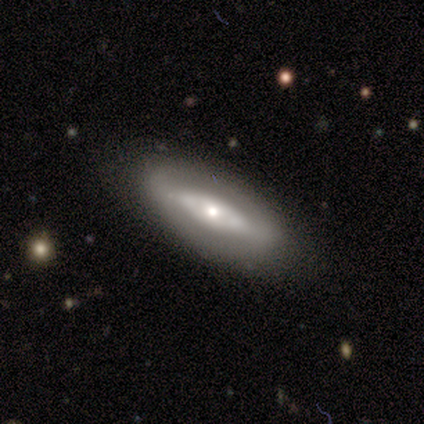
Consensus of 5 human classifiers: Smooth or featured? smooth (60%)
How rounded? in between (67%)
Merging? none (80%)